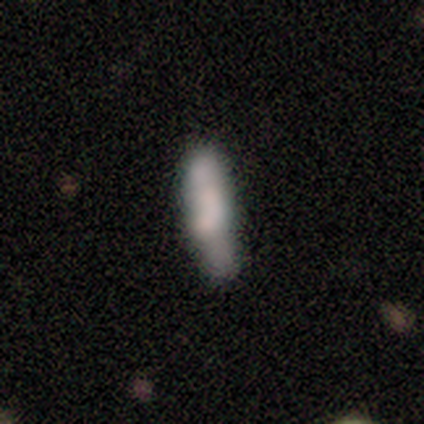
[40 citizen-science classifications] Smooth or featured? 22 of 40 (55%) said smooth. How rounded? 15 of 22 (68%) said cigar-shaped. Merging? 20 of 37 (54%) said none.